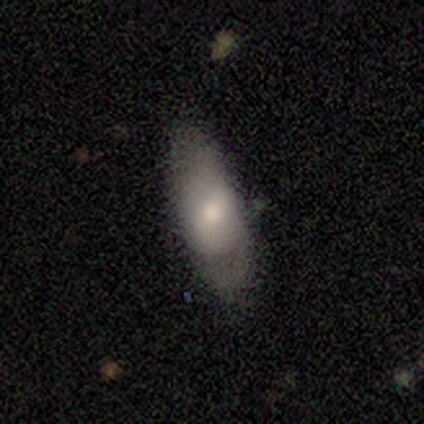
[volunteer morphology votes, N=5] Smooth or featured? smooth (100%)
How rounded? in between (100%)
Merging? none (80%)